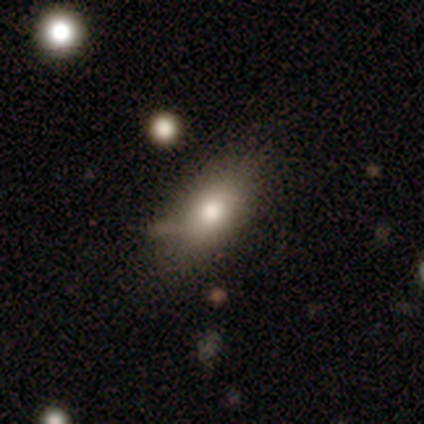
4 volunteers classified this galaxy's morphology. Q: Smooth or featured?
A: smooth (100%)
Q: How rounded?
A: in between (75%); runner-up: round (25%)
Q: Merging?
A: none (75%); runner-up: minor disturbance (25%)